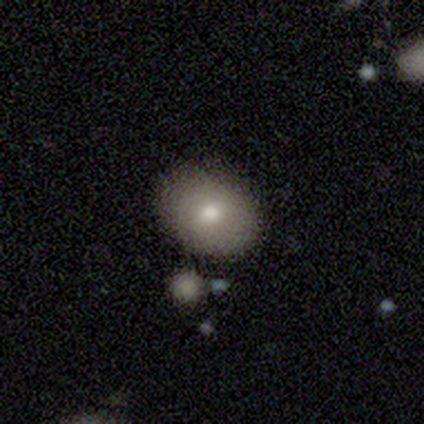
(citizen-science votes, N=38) Smooth or featured: smooth — 74% (featured or disk — 24%)
How rounded: in between — 68% (round — 32%)
Merging: none — 76% (minor disturbance — 14%)